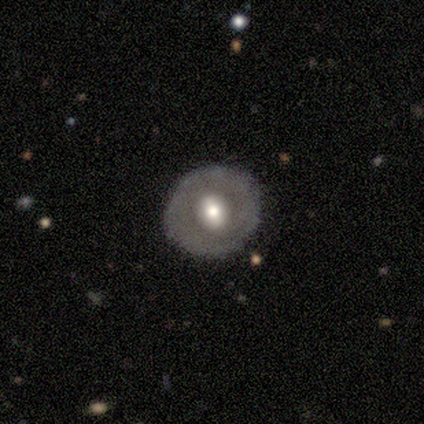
smooth_or_featured: featured or disk (p=0.60) [alt: smooth p=0.40]
disk_edge_on: no (p=1.00)
bar: weak (p=0.67) [alt: strong p=0.33]
has_spiral_arms: no (p=1.00)
bulge_size: moderate (p=0.67) [alt: small p=0.33]
merging: none (p=1.00)